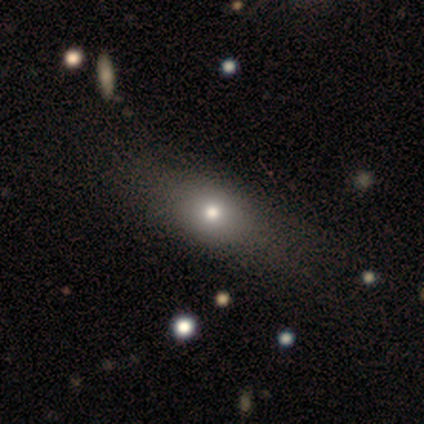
smooth-or-featured: smooth: 50% (tied) | featured or disk: 50% (tied) | star or artifact: 0%
  how-rounded: in between: 50% (tied) | cigar-shaped: 50% (tied) | round: 0%
  merging: none: 75% | major disturbance: 25% | minor disturbance: 0% | merger: 0%